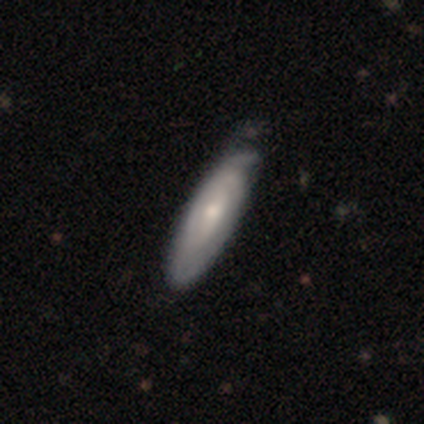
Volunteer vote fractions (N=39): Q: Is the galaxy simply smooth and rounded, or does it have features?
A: featured or disk — 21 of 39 (54%).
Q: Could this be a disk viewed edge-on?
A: no — 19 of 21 (90%).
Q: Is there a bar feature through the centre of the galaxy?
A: no — 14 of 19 (74%).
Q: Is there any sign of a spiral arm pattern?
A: yes — 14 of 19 (74%).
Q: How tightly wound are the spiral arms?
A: tight — 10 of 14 (71%).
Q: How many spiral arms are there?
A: can't tell — 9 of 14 (64%).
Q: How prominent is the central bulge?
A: small — 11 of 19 (58%).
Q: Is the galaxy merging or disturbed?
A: none — 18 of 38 (47%).